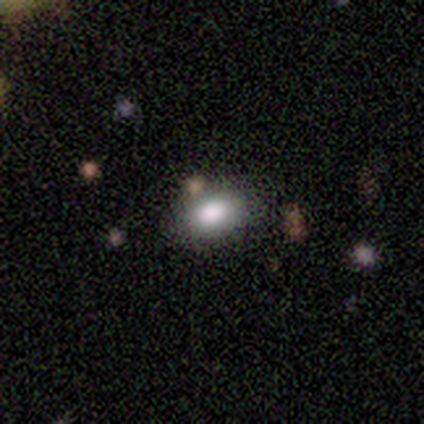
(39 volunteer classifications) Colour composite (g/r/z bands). It shows a smooth galaxy with no disk features (82%) that is in between round and cigar-shaped (84%). Merging: none (64%).